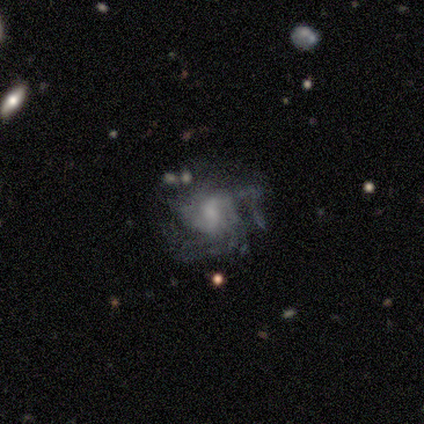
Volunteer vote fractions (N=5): featured or disk 60%, smooth 20%, star or artifact 20%. Down the decision tree: edge-on disk — no (100%); bar — weak (100%); spiral arms — yes (100%); spiral arm count — can't tell (67%); spiral winding — tight (67%); bulge size — large (33%, tied with moderate and small); merging — minor disturbance (50%).